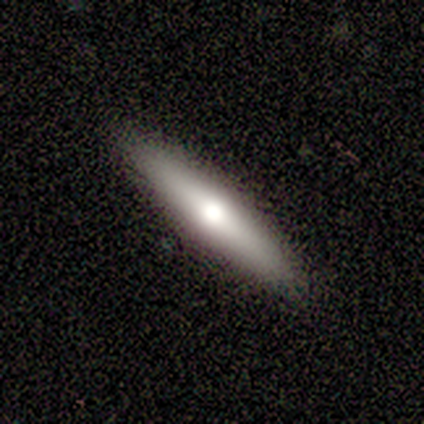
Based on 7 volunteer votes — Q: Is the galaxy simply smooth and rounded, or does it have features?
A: smooth — 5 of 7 (71%).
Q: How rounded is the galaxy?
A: cigar-shaped — 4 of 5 (80%).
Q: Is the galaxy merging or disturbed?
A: none — 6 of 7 (86%).